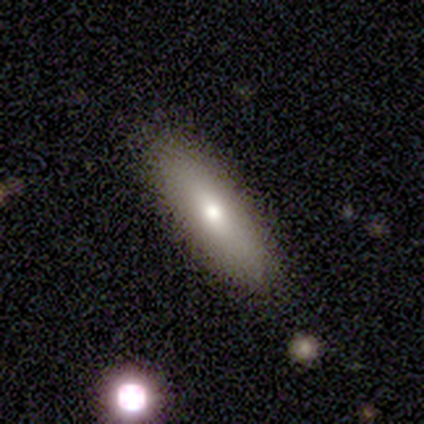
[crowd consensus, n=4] Smooth or featured?
  - smooth: 50% * (tied)
  - featured or disk: 50% * (tied)
  - star or artifact: 0%
How rounded?
  - in between: 100% *
  - round: 0%
  - cigar-shaped: 0%
Merging?
  - none: 100% *
  - minor disturbance: 0%
  - major disturbance: 0%
  - merger: 0%